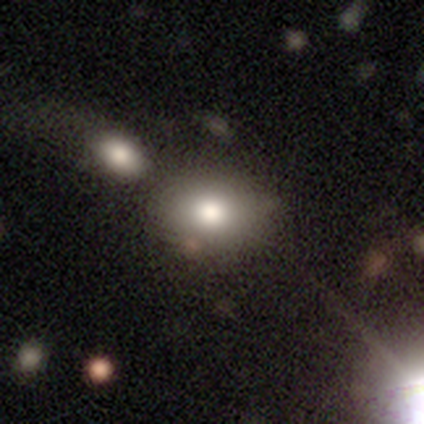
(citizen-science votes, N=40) smooth 80%, star or artifact 15%, featured or disk 5%. Down the decision tree: how rounded — in between (66%); merging — none (50%).